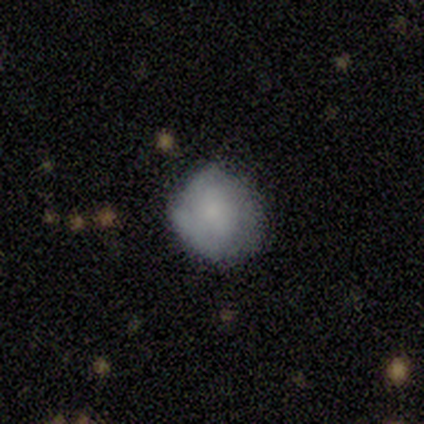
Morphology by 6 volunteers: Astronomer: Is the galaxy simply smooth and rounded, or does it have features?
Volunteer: smooth — 83%.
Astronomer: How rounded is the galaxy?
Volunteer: round — 80%.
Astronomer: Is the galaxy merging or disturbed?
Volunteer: none — 80%.